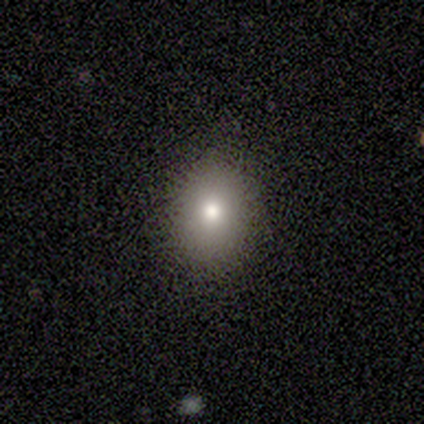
A smooth galaxy with no disk features (80%) that is round (75%).

Vote fractions:
- Smooth or featured? smooth: 80% / star or artifact: 20% / featured or disk: 0%
- How rounded? round: 75% / in between: 25% / cigar-shaped: 0%
- Merging? none: 100% / minor disturbance: 0% / major disturbance: 0% / merger: 0%